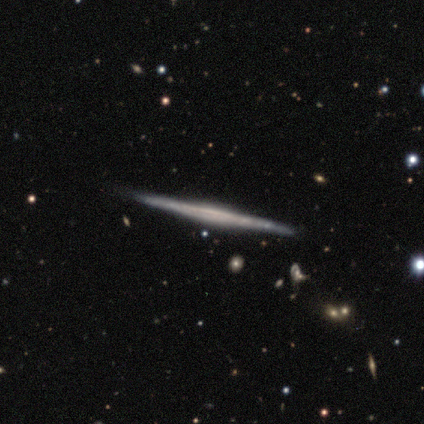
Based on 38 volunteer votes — featured or disk 82%, smooth 11%, star or artifact 8%. Down the decision tree: edge-on disk — yes (100%); edge-on bulge — none (71%); merging — none (89%).